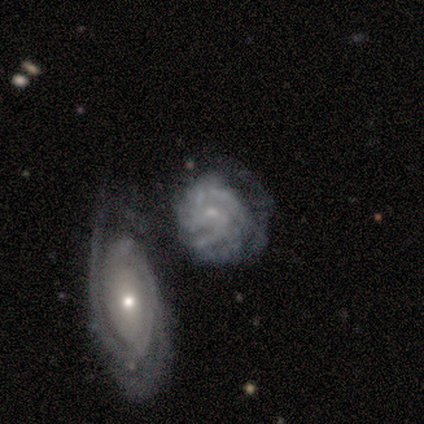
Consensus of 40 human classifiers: Smooth or featured: featured or disk — 82% (smooth — 15%)
Edge-on disk: no — 94% (yes — 6%)
Bar: no — 71% (weak — 29%)
Spiral arms: yes — 87% (no — 13%)
Spiral winding: tight — 70% (medium — 26%)
Spiral arm count: can't tell — 33% (3 — 22%)
Bulge size: small — 68% (moderate — 19%)
Merging: major disturbance — 33% (none — 26%)